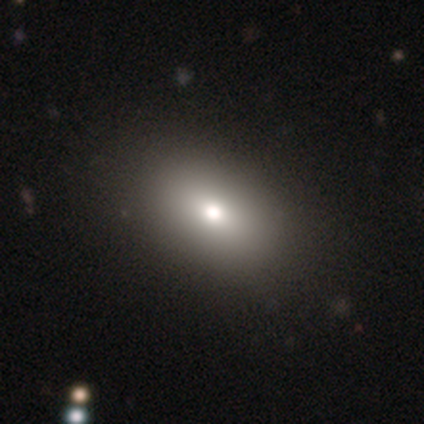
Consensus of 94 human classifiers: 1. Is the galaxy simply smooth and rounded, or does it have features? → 73% smooth, 15% star or artifact, 12% featured or disk.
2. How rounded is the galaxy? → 93% in between, 6% round, 1% cigar-shaped.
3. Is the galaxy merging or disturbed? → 82% none, 9% minor disturbance, 6% major disturbance, 2% merger.